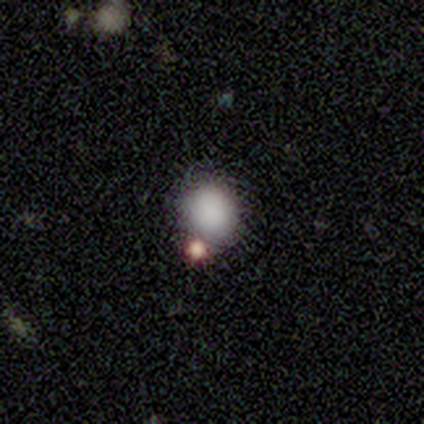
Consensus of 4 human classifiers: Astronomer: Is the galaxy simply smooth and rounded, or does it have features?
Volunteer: smooth — 75%.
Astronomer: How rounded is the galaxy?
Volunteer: round — 100%.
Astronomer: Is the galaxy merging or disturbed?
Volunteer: none — 75%.